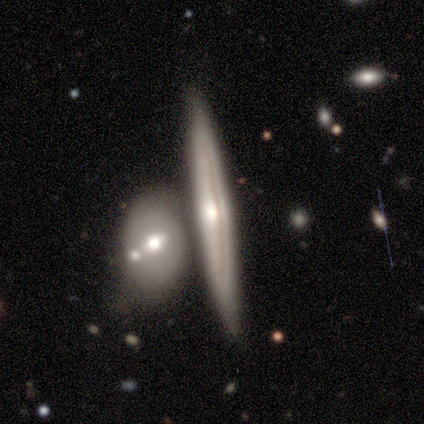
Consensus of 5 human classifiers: A featured or disk galaxy (100%) viewed edge-on (100%) with a rounded central bulge (80%). Merging: none (80%).